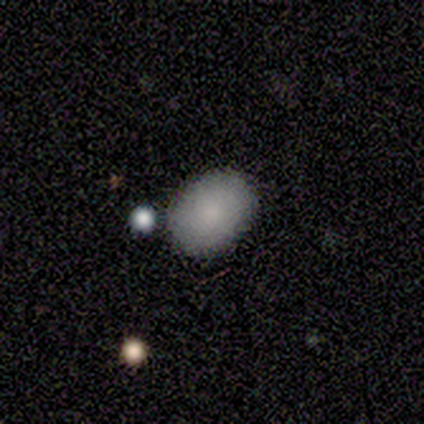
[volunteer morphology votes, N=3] Consensus on every question: smooth or featured — smooth (100%); how rounded — in between (100%); merging — none (100%).